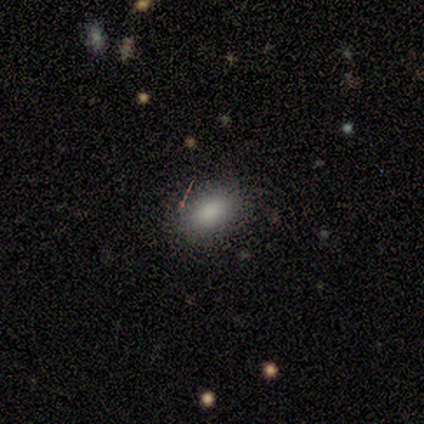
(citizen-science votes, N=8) Volunteers were most divided on "smooth or featured": smooth: 88%, star or artifact: 12%, featured or disk: 0%. More confident: how rounded — in between (100%); merging — none (100%).